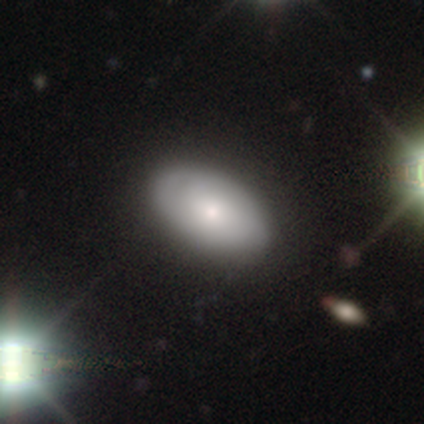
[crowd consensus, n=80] Overall: smooth (68%; featured or disk 29%). How rounded: in between (93%). Merging: none (51%).